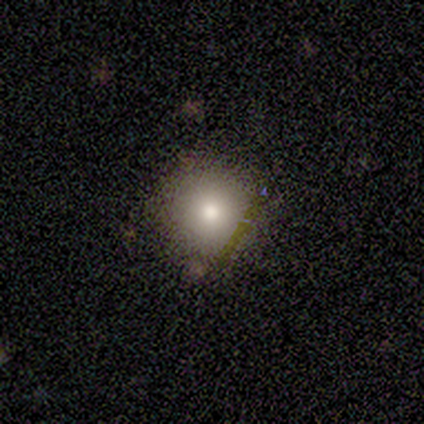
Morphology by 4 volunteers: smooth_or_featured: smooth (p=0.75) [alt: featured or disk p=0.25]
how_rounded: round (p=1.00)
merging: none (p=1.00)